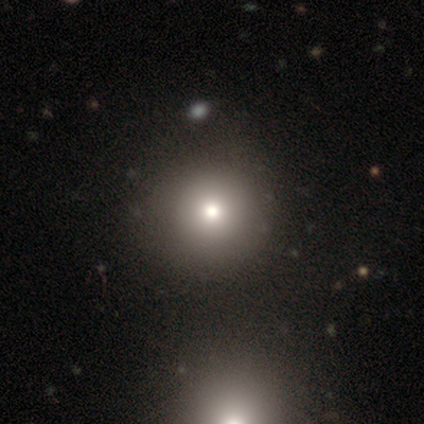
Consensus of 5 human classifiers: Morphology: type=smooth (100%); roundness=round (100%); merging=none (100%).